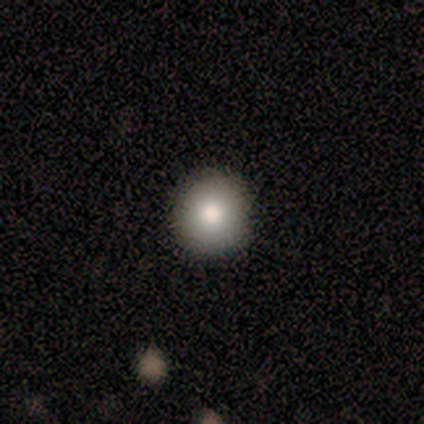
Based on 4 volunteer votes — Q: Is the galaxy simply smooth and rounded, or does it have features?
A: smooth — 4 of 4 (100%).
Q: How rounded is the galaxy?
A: round — 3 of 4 (75%).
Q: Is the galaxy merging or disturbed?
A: none — 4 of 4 (100%).